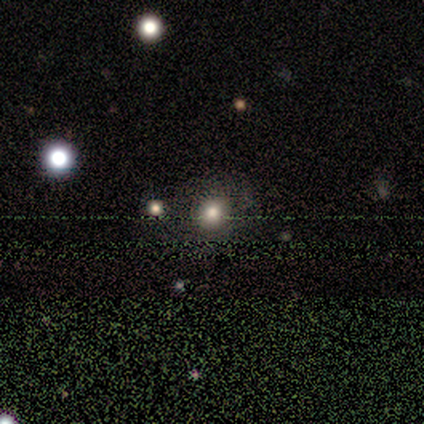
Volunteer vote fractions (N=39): Smooth or featured? smooth (46%, tied with star or artifact)
How rounded? round (78%)
Merging? none (62%)